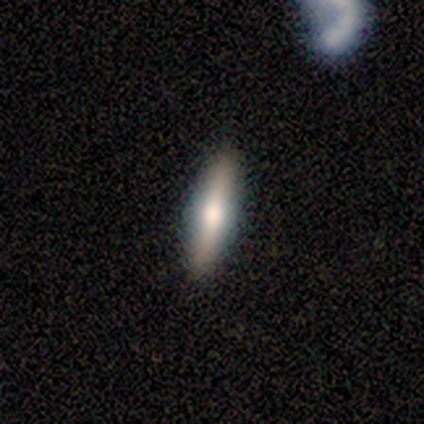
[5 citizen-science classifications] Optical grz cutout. It shows a featured or disk galaxy (60%) viewed edge-on (100%) with a rounded central bulge (100%). Merging: none (100%).